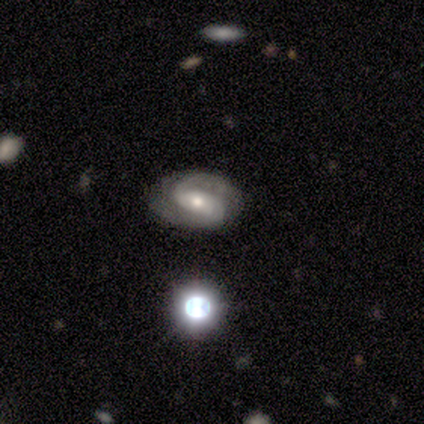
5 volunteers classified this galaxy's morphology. Smooth or featured? 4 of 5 (80%) said featured or disk. Edge-on disk? 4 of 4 (100%) said no. Bar? 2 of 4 (50%, tied with weak) said strong. Spiral arms? 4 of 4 (100%) said yes. Spiral winding? 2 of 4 (50%) said medium. Spiral arm count? 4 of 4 (100%) said 2. Bulge size? 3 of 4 (75%) said moderate. Merging? 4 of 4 (100%) said none.